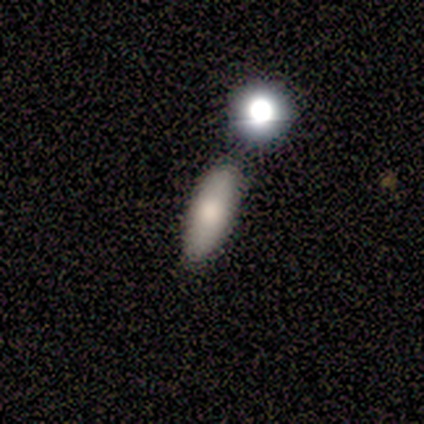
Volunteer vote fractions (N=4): Smooth or featured? 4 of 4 (100%) said smooth. How rounded? 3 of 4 (75%) said in between. Merging? 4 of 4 (100%) said none.